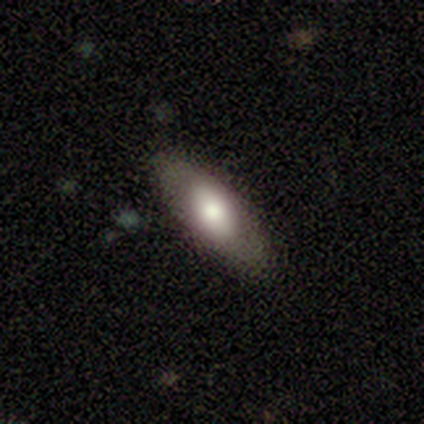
Overall: smooth (100%). How rounded: in between (80%). Merging: none (80%).